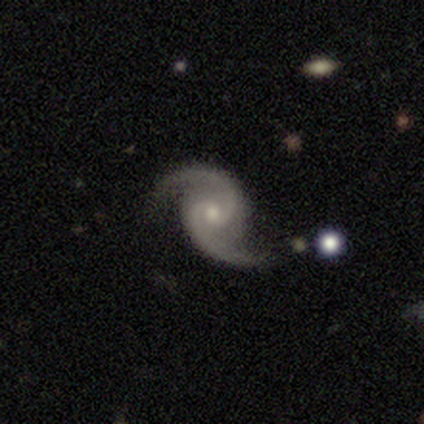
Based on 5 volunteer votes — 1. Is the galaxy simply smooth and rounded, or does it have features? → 100% featured or disk, 0% smooth, 0% star or artifact.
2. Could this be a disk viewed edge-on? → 100% no, 0% yes.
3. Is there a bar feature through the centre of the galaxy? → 60% no, 40% weak, 0% strong.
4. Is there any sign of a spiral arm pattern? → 100% yes, 0% no.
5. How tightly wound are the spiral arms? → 80% loose, 20% tight, 0% medium.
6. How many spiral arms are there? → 100% 2, 0% 1, 0% 3, 0% 4, 0% more than 4, 0% can't tell.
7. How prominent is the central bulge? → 60% moderate, 40% small, 0% dominant, 0% large, 0% none.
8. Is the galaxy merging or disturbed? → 100% none, 0% minor disturbance, 0% major disturbance, 0% merger.